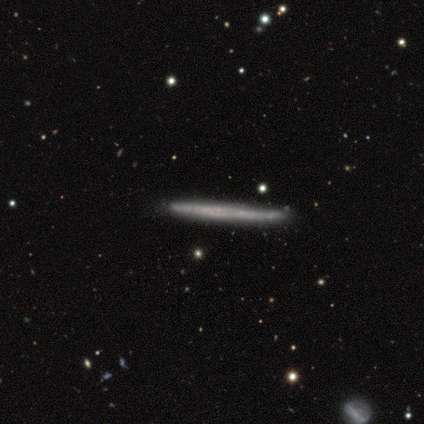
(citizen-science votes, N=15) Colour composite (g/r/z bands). It shows a smooth galaxy with no disk features (53%) that is cigar-shaped (100%). Merging: none (86%).